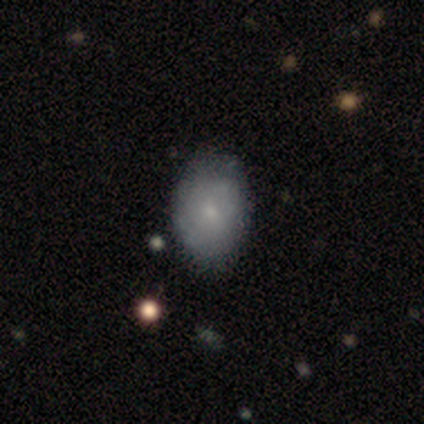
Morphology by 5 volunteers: Smooth or featured? 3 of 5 (60%) said featured or disk. Edge-on disk? 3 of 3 (100%) said no. Bar? 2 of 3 (67%) said no. Spiral arms? 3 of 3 (100%) said yes. Spiral winding? 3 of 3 (100%) said tight. Spiral arm count? 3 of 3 (100%) said can't tell. Bulge size? 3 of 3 (100%) said small. Merging? 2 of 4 (50%, tied with minor disturbance) said none.